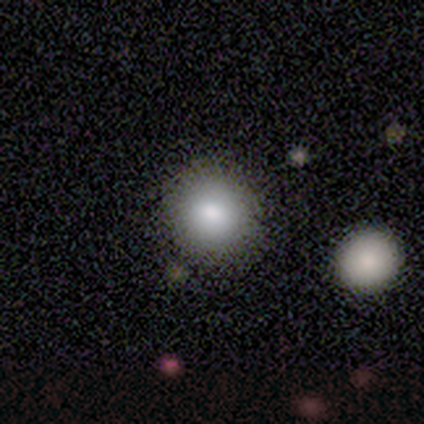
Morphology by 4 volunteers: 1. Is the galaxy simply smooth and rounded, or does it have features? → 75% smooth, 25% featured or disk, 0% star or artifact.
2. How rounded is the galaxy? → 67% round, 33% in between, 0% cigar-shaped.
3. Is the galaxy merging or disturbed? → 50% none, 25% minor disturbance, 25% major disturbance, 0% merger.